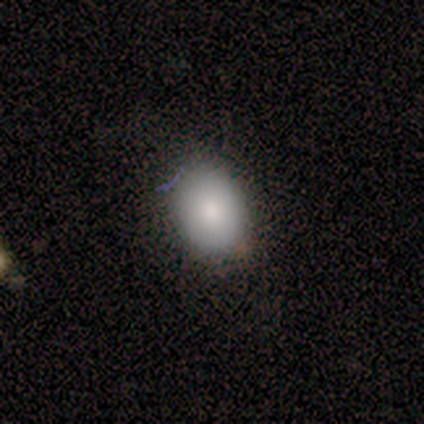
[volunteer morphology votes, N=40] Smooth or featured? smooth (80%)
How rounded? in between (78%)
Merging? none (86%)